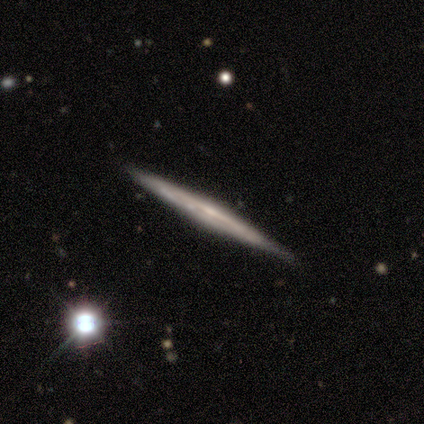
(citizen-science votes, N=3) Smooth or featured?
  - star or artifact: 67% *
  - featured or disk: 33%
  - smooth: 0%